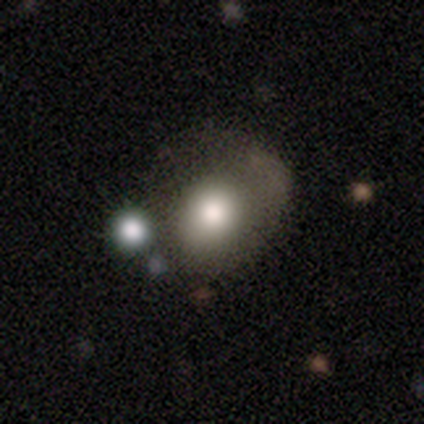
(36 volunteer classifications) A smooth galaxy with no disk features (81%) that is round (76%). Merging: none (45%).